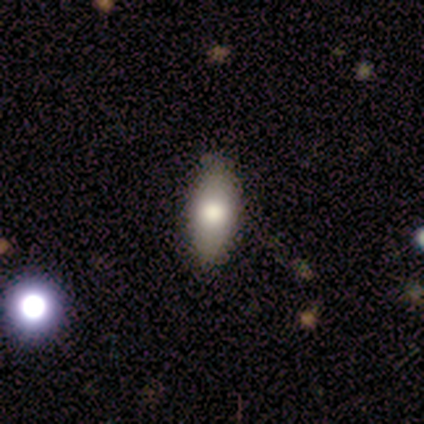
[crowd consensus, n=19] Morphology: type=smooth (74%); roundness=in between (79%); merging=none (82%).